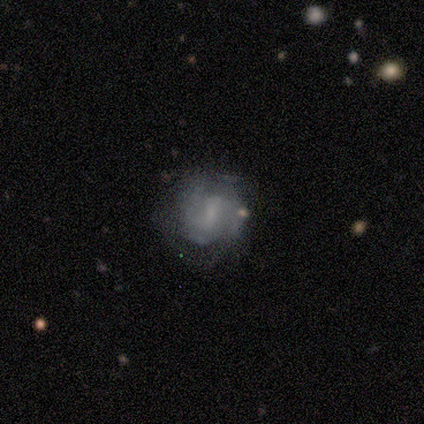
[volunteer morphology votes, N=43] Smooth or featured: featured or disk — 88% (smooth — 9%)
Edge-on disk: no — 100%
Bar: weak — 61% (no — 24%)
Spiral arms: yes — 82% (no — 18%)
Spiral winding: tight — 52% (medium — 39%)
Spiral arm count: 2 — 55% (3 — 23%)
Bulge size: none — 42% (small — 32%)
Merging: none — 62% (minor disturbance — 24%)